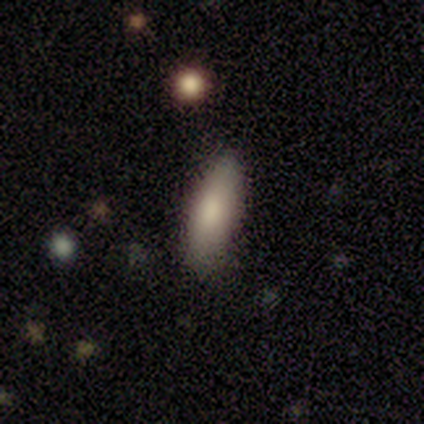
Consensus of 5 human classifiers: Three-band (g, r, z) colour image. It shows a star or artifact, not a galaxy (80%).